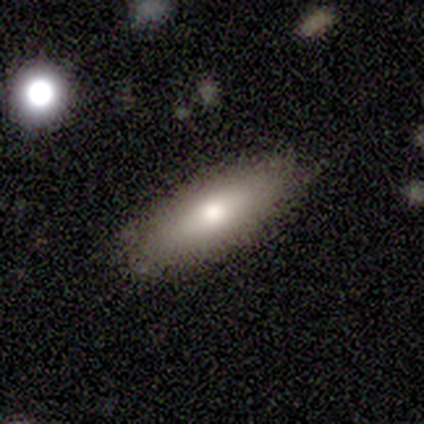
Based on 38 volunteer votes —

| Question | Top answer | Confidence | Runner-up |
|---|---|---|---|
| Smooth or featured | smooth | 74% | featured or disk (18%) |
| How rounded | in between | 64% | cigar-shaped (36%) |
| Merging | none | 91% | major disturbance (6%) |